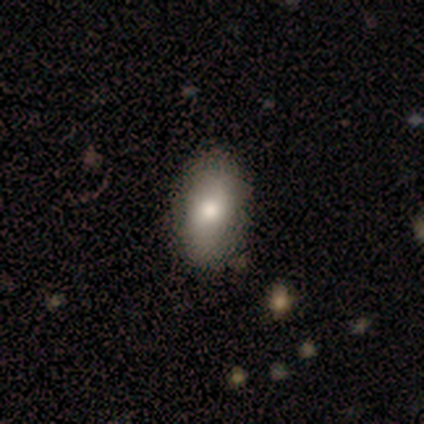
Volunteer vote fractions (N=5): Smooth or featured: smooth — 80% (star or artifact — 20%)
How rounded: in between — 100%
Merging: none — 100%